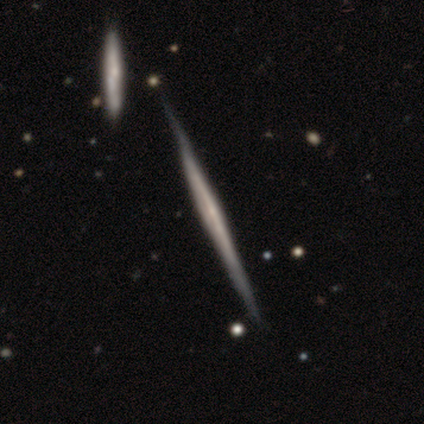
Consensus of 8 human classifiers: Overall: featured or disk (62%; smooth 38%). Edge-on disk: yes (100%). Edge-on bulge: none (60%; rounded 40%). Merging: none (100%).